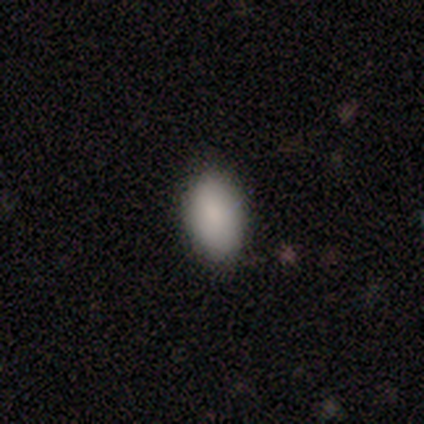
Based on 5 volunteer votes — A smooth galaxy with no disk features (100%) that is in between round and cigar-shaped (60%). Merging: none (100%).